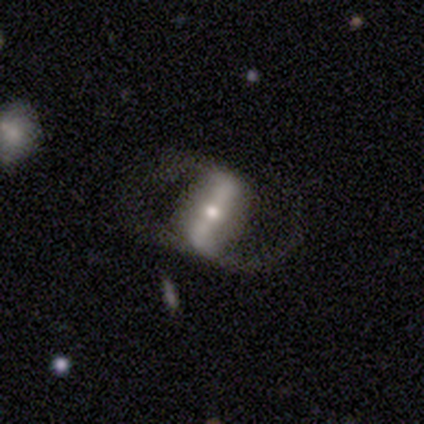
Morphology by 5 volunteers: Q: Smooth or featured?
A: featured or disk (80%); runner-up: smooth (20%)
Q: Edge-on disk?
A: no (100%)
Q: Bar?
A: strong (100%)
Q: Spiral arms?
A: yes (75%); runner-up: no (25%)
Q: Spiral winding?
A: loose (67%); runner-up: medium (33%)
Q: Spiral arm count?
A: 2 (100%)
Q: Bulge size?
A: small (75%); runner-up: moderate (25%)
Q: Merging?
A: none (80%); runner-up: minor disturbance (20%)